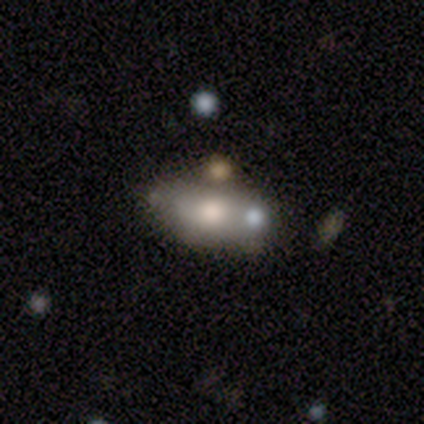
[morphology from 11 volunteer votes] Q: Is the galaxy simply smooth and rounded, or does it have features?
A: featured or disk — 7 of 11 (64%).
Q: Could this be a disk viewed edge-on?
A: no — 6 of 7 (86%).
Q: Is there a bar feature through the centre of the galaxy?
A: no — 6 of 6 (100%).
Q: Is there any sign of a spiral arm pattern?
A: no — 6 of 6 (100%).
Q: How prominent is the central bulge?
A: moderate — 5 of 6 (83%).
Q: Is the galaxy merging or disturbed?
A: none — 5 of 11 (45%).